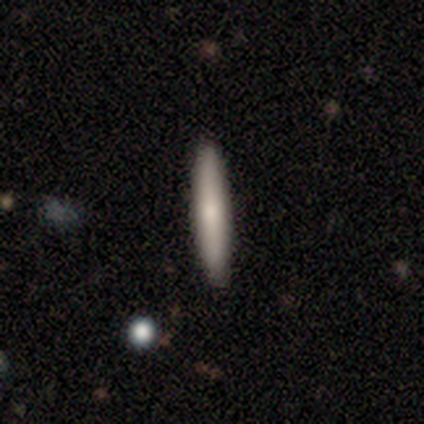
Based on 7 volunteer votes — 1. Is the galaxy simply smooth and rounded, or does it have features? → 71% smooth, 29% featured or disk, 0% star or artifact.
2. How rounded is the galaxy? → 100% cigar-shaped, 0% round, 0% in between.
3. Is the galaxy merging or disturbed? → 86% none, 14% merger, 0% minor disturbance, 0% major disturbance.